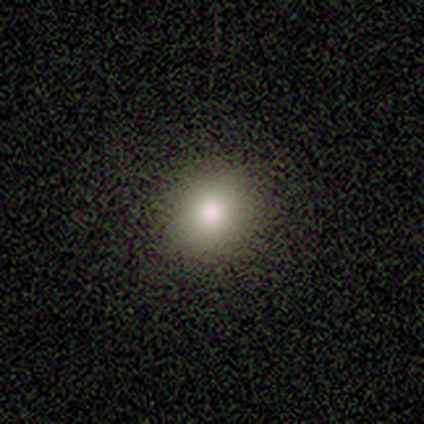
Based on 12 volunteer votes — smooth-or-featured: smooth: 83% | featured or disk: 8% | star or artifact: 8%
  how-rounded: round: 90% | in between: 10% | cigar-shaped: 0%
  merging: none: 100% | minor disturbance: 0% | major disturbance: 0% | merger: 0%